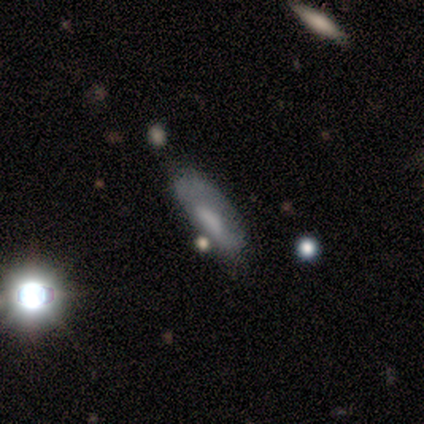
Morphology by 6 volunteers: Smooth or featured?
  - smooth: 67% *
  - featured or disk: 17%
  - star or artifact: 17%
How rounded?
  - in between: 75% *
  - cigar-shaped: 25%
  - round: 0%
Merging?
  - none: 40% * (tied)
  - major disturbance: 40% * (tied)
  - minor disturbance: 20%
  - merger: 0%